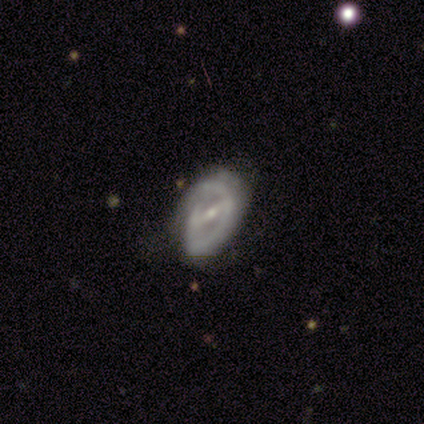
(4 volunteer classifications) This is clearly a featured or disk galaxy (100%). It is clearly not viewed edge-on (100%). Bar: clearly strong (100%). Spiral arm pattern: likely yes (75%). Spiral arm count: likely 2 (67%). Spiral winding: likely tight (67%). Central bulge: likely small (75%). Merging: likely none (75%).